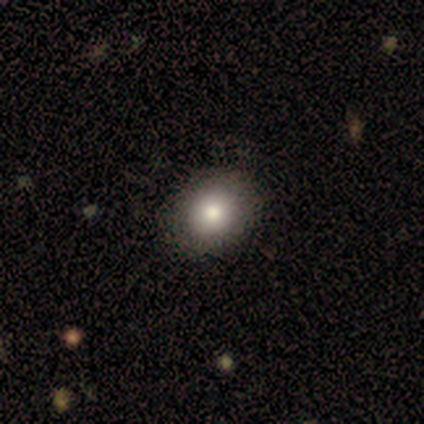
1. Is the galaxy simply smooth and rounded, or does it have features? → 80% smooth, 20% star or artifact, 0% featured or disk.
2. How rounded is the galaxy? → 75% round, 25% in between, 0% cigar-shaped.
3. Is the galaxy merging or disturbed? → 100% none, 0% minor disturbance, 0% major disturbance, 0% merger.